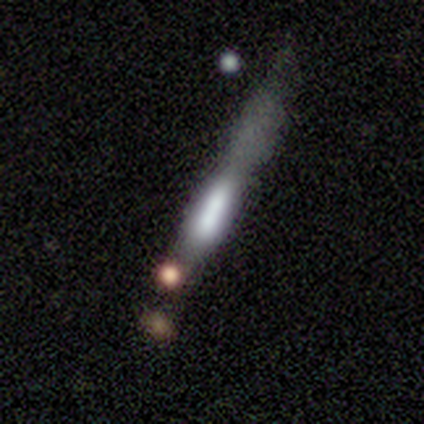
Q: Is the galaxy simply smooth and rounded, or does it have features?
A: featured or disk — 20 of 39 (51%).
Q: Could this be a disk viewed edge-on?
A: yes — 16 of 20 (80%).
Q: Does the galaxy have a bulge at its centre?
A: boxy — 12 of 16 (75%).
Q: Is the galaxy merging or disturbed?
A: none — 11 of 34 (32%).